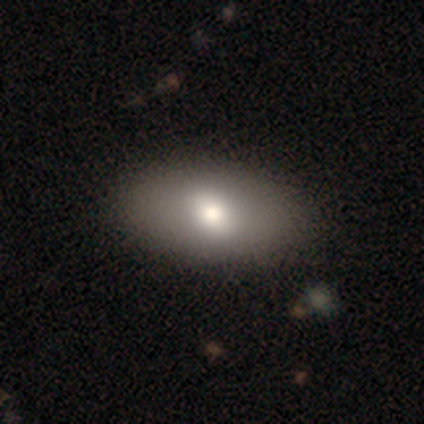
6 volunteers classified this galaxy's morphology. type=smooth (67%); roundness=in between (100%); merging=none (100%).